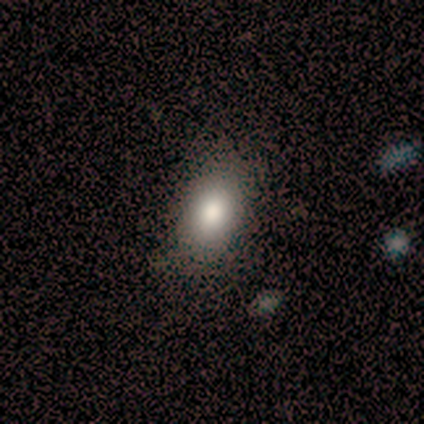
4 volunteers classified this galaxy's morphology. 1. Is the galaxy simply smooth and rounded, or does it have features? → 75% smooth, 25% star or artifact, 0% featured or disk.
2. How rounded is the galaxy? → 67% in between, 33% round, 0% cigar-shaped.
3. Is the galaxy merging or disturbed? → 67% none, 33% merger, 0% minor disturbance, 0% major disturbance.